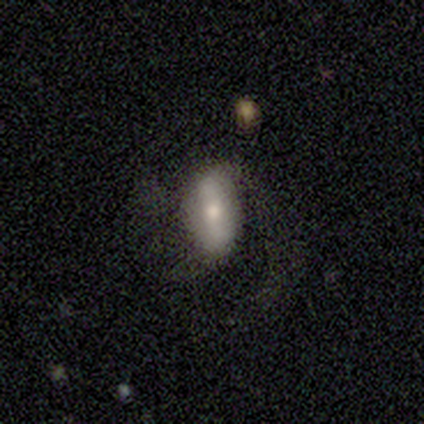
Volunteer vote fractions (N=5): smooth-or-featured: smooth: 60% | featured or disk: 40% | star or artifact: 0%
  how-rounded: in between: 67% | round: 33% | cigar-shaped: 0%
  merging: none: 60% | major disturbance: 40% | minor disturbance: 0% | merger: 0%